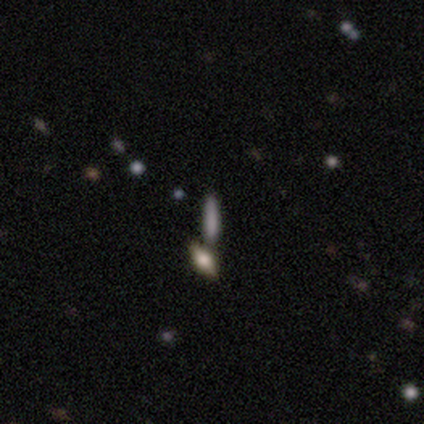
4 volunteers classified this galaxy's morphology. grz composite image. It shows a smooth galaxy with no disk features (75%) that is cigar-shaped (100%). Merging: none (75%).